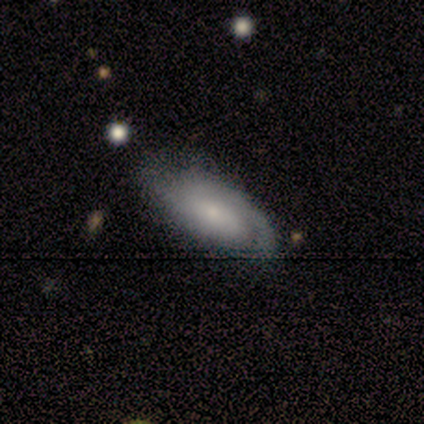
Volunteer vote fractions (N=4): Volunteers were most divided on "smooth or featured": smooth: 75%, featured or disk: 25%, star or artifact: 0%. More confident: how rounded — in between (100%); merging — none (100%).